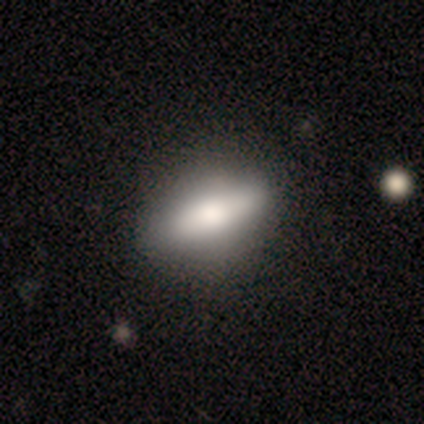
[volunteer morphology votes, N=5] smooth-or-featured: smooth: 60% | featured or disk: 20% | star or artifact: 20%
  how-rounded: in between: 67% | cigar-shaped: 33% | round: 0%
  merging: none: 100% | minor disturbance: 0% | major disturbance: 0% | merger: 0%